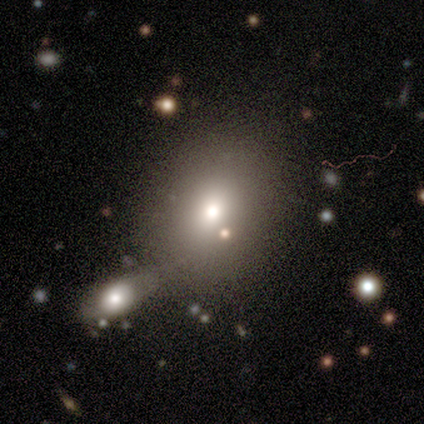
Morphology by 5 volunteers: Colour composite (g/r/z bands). It shows a smooth galaxy with no disk features (60%) that is round (67%). Merging: merger (60%).